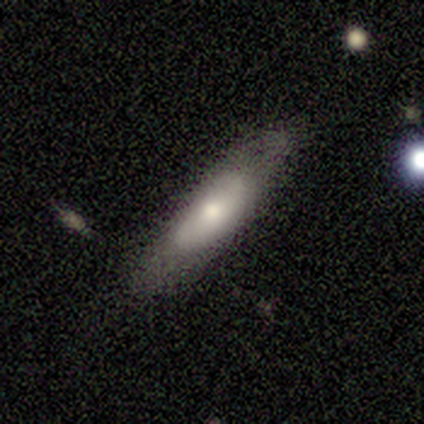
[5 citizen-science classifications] Smooth or featured? featured or disk (60%)
Edge-on disk? yes (100%)
Edge-on bulge? rounded (100%)
Merging? none (100%)